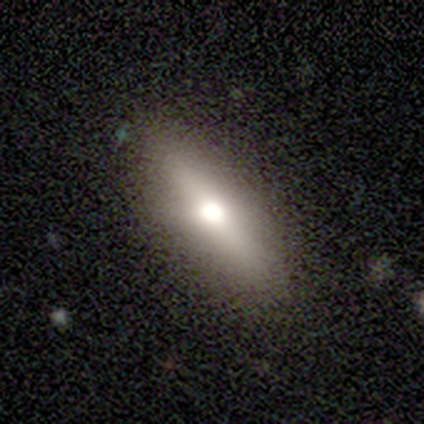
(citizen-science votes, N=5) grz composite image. It shows a featured or disk galaxy (60%) viewed edge-on (67%) with a rounded central bulge (100%). Merging: none (100%).